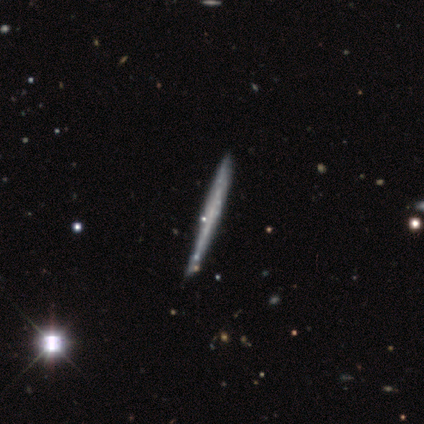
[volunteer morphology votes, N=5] Volunteers were most divided on "smooth or featured" (2-way tie): featured or disk: 40%, star or artifact: 40%, smooth: 20%. More confident: edge-on disk — yes (100%); edge-on bulge — none (100%); merging — none (100%).